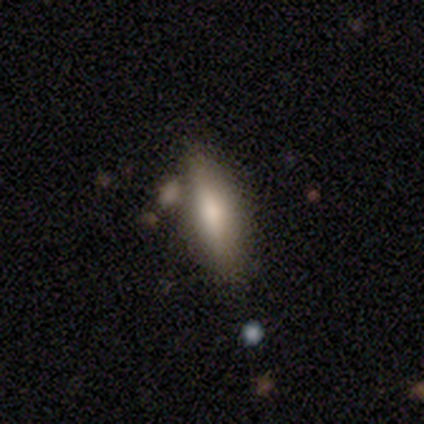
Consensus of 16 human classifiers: smooth-or-featured: smooth: 62% | featured or disk: 25% | star or artifact: 12%
  how-rounded: in between: 50% (tied) | cigar-shaped: 50% (tied) | round: 0%
  merging: none: 79% | merger: 21% | minor disturbance: 0% | major disturbance: 0%